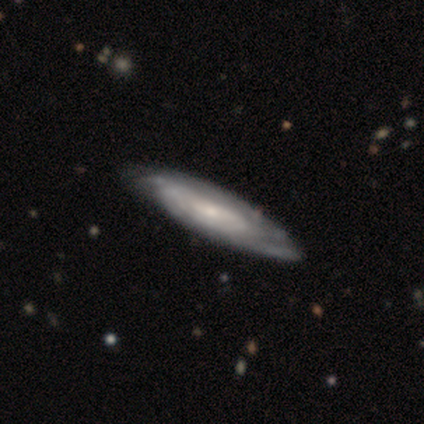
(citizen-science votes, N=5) smooth-or-featured: featured or disk: 80% | smooth: 20% | star or artifact: 0%
  disk-edge-on: no: 100% | yes: 0%
    bar: no: 75% | weak: 25% | strong: 0%
    has-spiral-arms: yes: 75% | no: 25%
      spiral-winding: tight: 100% | medium: 0% | loose: 0%
      spiral-arm-count: can't tell: 100% | 1: 0% | 2: 0% | 3: 0% | 4: 0% | more than 4: 0%
    bulge-size: small: 100% | dominant: 0% | large: 0% | moderate: 0% | none: 0%
  merging: none: 100% | minor disturbance: 0% | major disturbance: 0% | merger: 0%